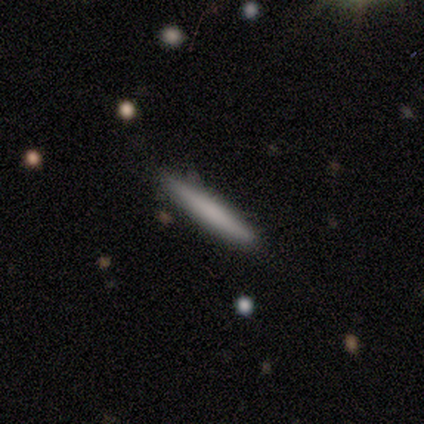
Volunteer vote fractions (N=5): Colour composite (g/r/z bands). It shows a smooth galaxy with no disk features (60%) that is cigar-shaped (100%). Merging: none (80%).